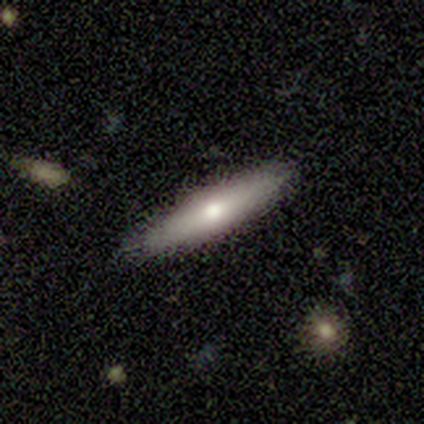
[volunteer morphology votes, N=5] A smooth galaxy with no disk features (40%, tied with star or artifact) that is cigar-shaped (100%).

Vote fractions:
- Smooth or featured? smooth: 40% (tied) / star or artifact: 40% (tied) / featured or disk: 20%
- How rounded? cigar-shaped: 100% / round: 0% / in between: 0%
- Merging? none: 100% / minor disturbance: 0% / major disturbance: 0% / merger: 0%